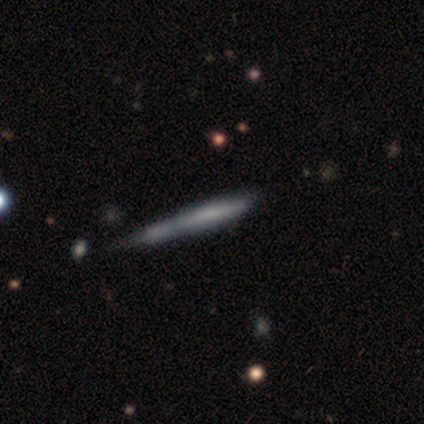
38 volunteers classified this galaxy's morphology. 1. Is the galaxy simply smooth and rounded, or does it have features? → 58% featured or disk, 34% smooth, 8% star or artifact.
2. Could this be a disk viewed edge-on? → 86% yes, 14% no.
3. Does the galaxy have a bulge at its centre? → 89% none, 5% boxy, 5% rounded.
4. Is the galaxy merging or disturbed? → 51% none, 23% minor disturbance, 20% merger, 6% major disturbance.